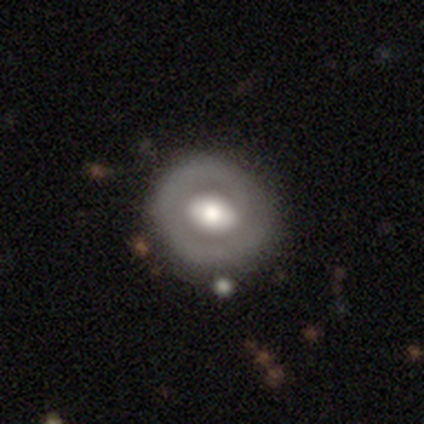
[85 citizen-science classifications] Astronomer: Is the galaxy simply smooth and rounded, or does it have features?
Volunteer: featured or disk — 56% (runner-up: smooth, 39%).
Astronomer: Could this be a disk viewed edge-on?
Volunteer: no — 98%.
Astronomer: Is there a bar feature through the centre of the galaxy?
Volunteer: no — 51% (runner-up: weak, 30%).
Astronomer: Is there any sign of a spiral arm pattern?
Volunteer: no — 70%.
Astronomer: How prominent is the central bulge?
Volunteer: large — 51% (runner-up: moderate, 43%).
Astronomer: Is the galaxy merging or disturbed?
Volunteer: none — 84%.